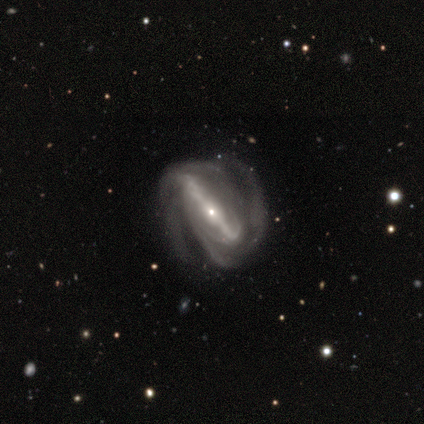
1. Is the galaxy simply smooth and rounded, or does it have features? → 100% featured or disk, 0% smooth, 0% star or artifact.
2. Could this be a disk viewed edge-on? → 100% no, 0% yes.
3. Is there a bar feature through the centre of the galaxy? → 100% strong, 0% weak, 0% no.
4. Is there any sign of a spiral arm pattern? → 100% yes, 0% no.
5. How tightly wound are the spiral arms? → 40% medium (tied), 40% loose (tied), 20% tight.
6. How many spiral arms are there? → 60% can't tell, 20% 2, 20% 4, 0% 1, 0% 3, 0% more than 4.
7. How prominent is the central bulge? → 100% small, 0% dominant, 0% large, 0% moderate, 0% none.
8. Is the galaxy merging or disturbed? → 80% none, 20% major disturbance, 0% minor disturbance, 0% merger.